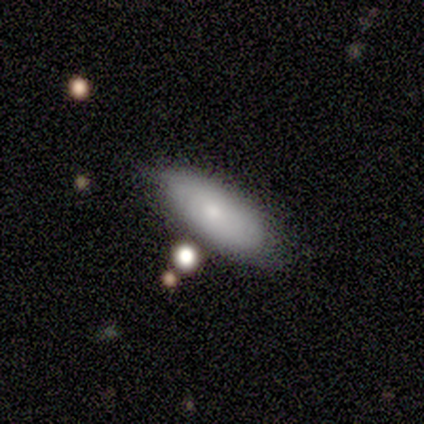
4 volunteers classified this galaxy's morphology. smooth_or_featured: smooth (p=0.75) [alt: featured or disk p=0.25]
how_rounded: in between (p=1.00)
merging: none (p=0.75) [alt: minor disturbance p=0.25]